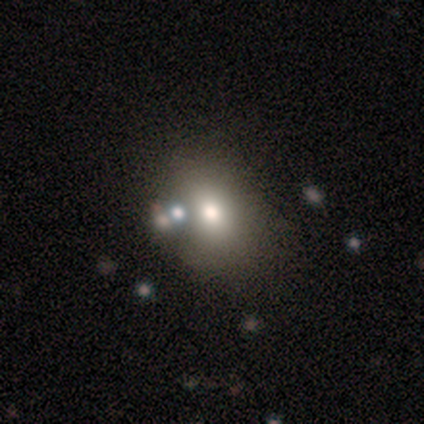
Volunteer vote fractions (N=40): Smooth or featured?
  - smooth: 60% *
  - star or artifact: 28%
  - featured or disk: 12%
How rounded?
  - round: 50% * (tied)
  - in between: 50% * (tied)
  - cigar-shaped: 0%
Merging?
  - none: 55% *
  - merger: 21%
  - minor disturbance: 17%
  - major disturbance: 7%